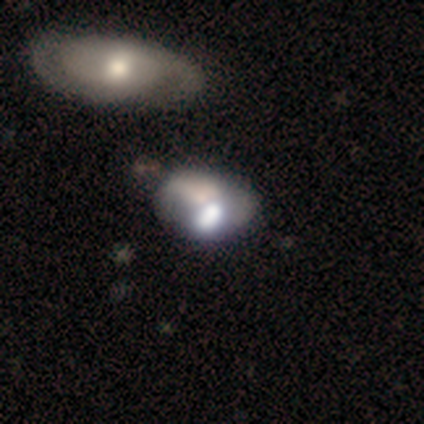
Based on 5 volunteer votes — Q: Smooth or featured?
A: featured or disk (60%); runner-up: star or artifact (40%)
Q: Edge-on disk?
A: no (100%)
Q: Bar?
A: no (100%)
Q: Spiral arms?
A: no (100%)
Q: Bulge size?
A: large (33%); tied with: moderate (33%); small (33%)
Q: Merging?
A: none (67%); runner-up: minor disturbance (33%)